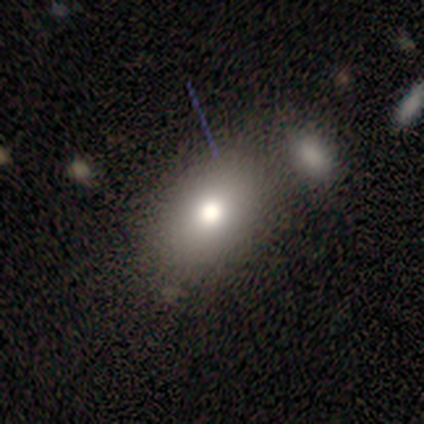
Morphology: type=smooth (100%); roundness=in between (80%); merging=none (100%).